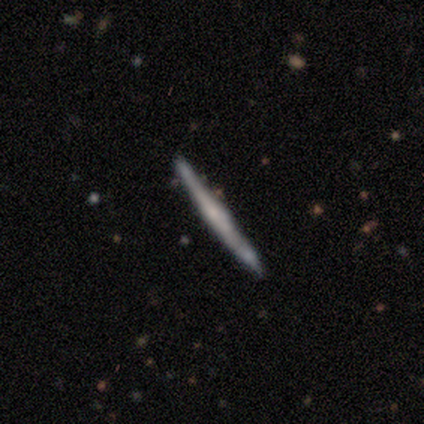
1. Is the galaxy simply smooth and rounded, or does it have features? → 50% smooth (tied), 50% featured or disk (tied), 0% star or artifact.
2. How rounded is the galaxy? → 100% cigar-shaped, 0% round, 0% in between.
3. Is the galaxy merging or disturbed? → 75% none, 25% major disturbance, 0% minor disturbance, 0% merger.